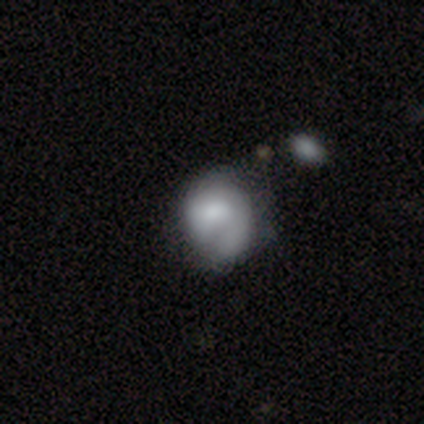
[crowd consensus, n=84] smooth 57%, featured or disk 36%, star or artifact 7%. Down the decision tree: how rounded — round (75%); merging — none (47%).